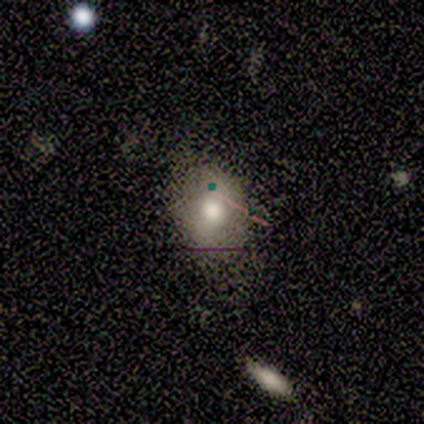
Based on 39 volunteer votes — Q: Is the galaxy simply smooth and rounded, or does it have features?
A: smooth — 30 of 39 (77%).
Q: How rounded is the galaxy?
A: in between — 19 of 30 (63%).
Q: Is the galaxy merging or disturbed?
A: none — 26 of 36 (72%).